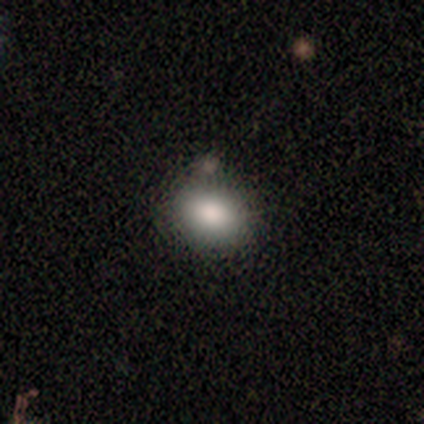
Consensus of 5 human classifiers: Smooth or featured?
  - smooth: 80% *
  - featured or disk: 20%
  - star or artifact: 0%
How rounded?
  - in between: 100% *
  - round: 0%
  - cigar-shaped: 0%
Merging?
  - none: 100% *
  - minor disturbance: 0%
  - major disturbance: 0%
  - merger: 0%